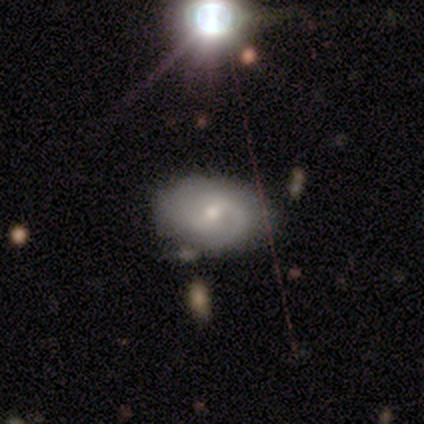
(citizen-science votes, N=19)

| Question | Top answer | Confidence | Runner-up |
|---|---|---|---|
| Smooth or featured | featured or disk | 74% | smooth (21%) |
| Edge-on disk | no | 100% | — |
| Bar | no | 50% | weak (43%) |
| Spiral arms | yes | 86% | no (14%) |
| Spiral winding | tight | 42% | tied: medium (42%) |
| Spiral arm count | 2 | 67% | 1 (17%) |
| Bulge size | small | 64% | moderate (29%) |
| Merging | none | 89% | minor disturbance (11%) |